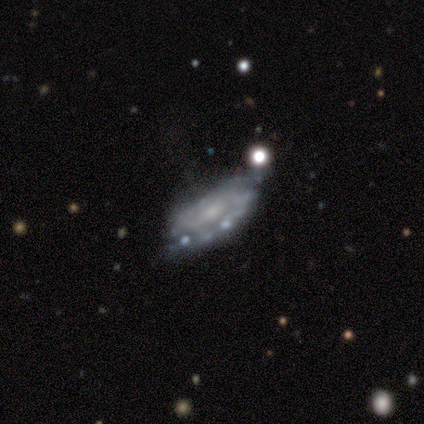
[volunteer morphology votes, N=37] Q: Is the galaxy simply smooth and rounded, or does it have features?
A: featured or disk — 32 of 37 (86%).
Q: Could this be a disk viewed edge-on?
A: no — 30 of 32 (94%).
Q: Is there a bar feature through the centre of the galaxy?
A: no — 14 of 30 (47%).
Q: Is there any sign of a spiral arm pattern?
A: yes — 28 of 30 (93%).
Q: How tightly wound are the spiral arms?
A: medium — 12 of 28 (43%).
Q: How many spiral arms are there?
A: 2 — 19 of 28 (68%).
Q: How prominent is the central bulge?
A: small — 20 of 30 (67%).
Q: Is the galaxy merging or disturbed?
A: none — 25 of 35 (71%).